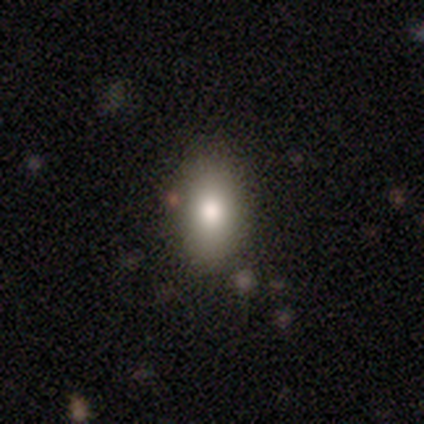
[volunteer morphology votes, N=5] Smooth or featured: smooth — 60% (star or artifact — 40%)
How rounded: in between — 100%
Merging: none — 100%